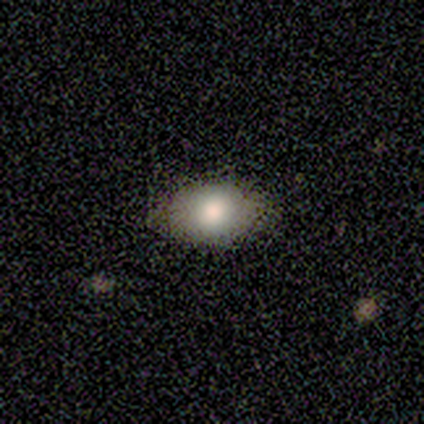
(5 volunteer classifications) Smooth or featured? 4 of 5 (80%) said smooth. How rounded? 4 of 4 (100%) said in between. Merging? 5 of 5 (100%) said none.